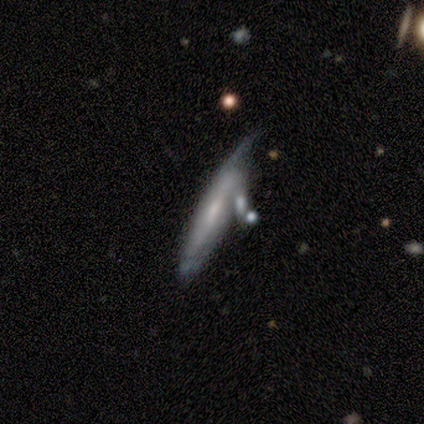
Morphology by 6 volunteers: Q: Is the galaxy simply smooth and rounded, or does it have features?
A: featured or disk — 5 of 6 (83%).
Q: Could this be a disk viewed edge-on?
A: yes — 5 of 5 (100%).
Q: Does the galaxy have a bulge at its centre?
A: none — 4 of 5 (80%).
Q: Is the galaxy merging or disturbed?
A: none — 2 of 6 (33%, tied with minor disturbance).